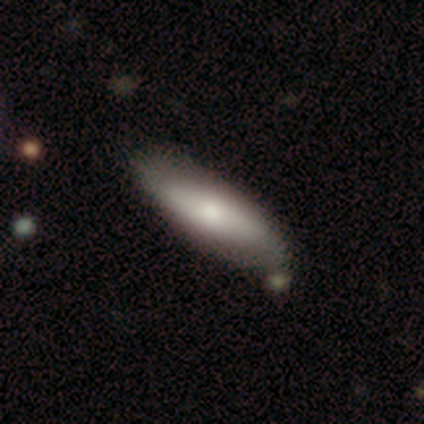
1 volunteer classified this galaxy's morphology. Smooth or featured? 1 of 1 (100%) said featured or disk. Edge-on disk? 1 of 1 (100%) said no. Bar? 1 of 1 (100%) said no. Spiral arms? 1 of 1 (100%) said yes. Spiral winding? 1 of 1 (100%) said tight. Spiral arm count? 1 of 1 (100%) said 2. Bulge size? 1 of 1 (100%) said large. Merging? 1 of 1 (100%) said none.